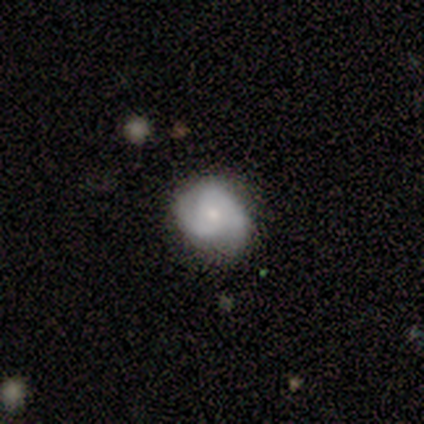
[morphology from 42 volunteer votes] smooth-or-featured: featured or disk: 79% | star or artifact: 12% | smooth: 10%
  disk-edge-on: no: 100% | yes: 0%
    bar: no: 88% | weak: 9% | strong: 3%
    has-spiral-arms: yes: 88% | no: 12%
      spiral-winding: tight: 62% | medium: 21% | loose: 17%
      spiral-arm-count: 2: 55% | 3: 34% | can't tell: 10% | 1: 0% | 4: 0% | more than 4: 0%
    bulge-size: small: 67% | moderate: 33% | dominant: 0% | large: 0% | none: 0%
  merging: none: 86% | minor disturbance: 14% | major disturbance: 0% | merger: 0%